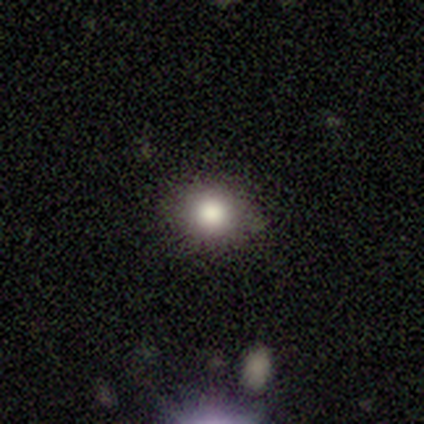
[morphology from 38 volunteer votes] type=smooth (79%); roundness=round (87%); merging=none (83%).